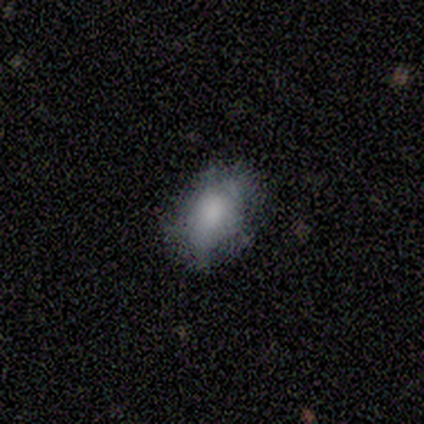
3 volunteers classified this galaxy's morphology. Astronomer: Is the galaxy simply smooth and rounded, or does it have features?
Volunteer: smooth — 67%.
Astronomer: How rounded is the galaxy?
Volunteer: in between — 100%.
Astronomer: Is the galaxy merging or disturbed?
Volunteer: minor disturbance — 67%.